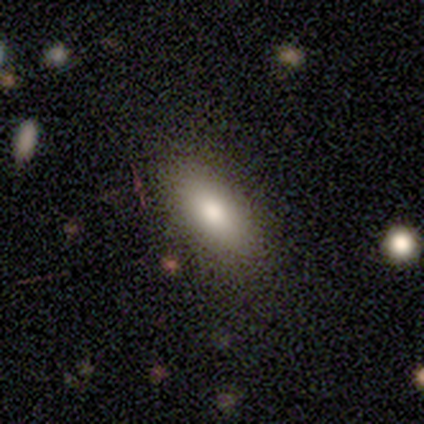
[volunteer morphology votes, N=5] This is clearly a smooth galaxy (80%). How rounded: clearly in between (100%). Merging: clearly none (100%).